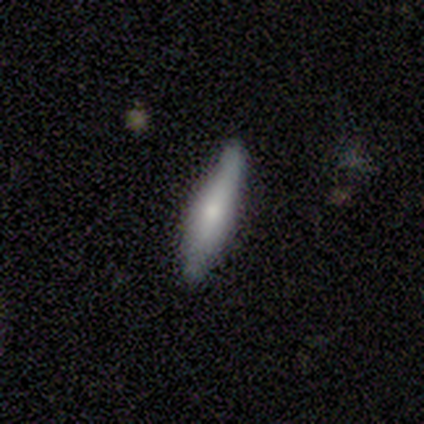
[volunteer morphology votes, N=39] Smooth or featured? 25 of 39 (64%) said smooth. How rounded? 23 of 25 (92%) said cigar-shaped. Merging? 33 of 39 (85%) said none.